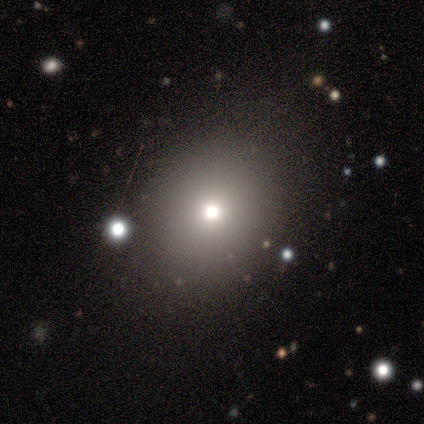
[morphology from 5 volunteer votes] This appears to be a smooth galaxy with no disk features (80%) that is round (75%). Merging: none (100%).